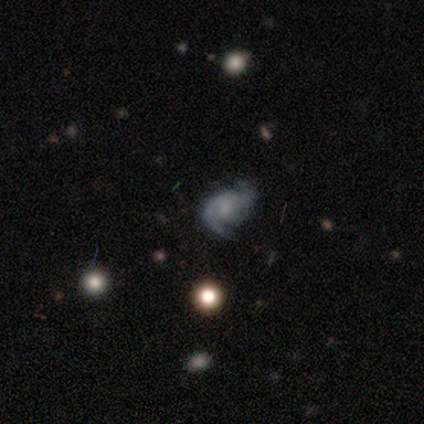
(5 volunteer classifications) Smooth or featured? 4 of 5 (80%) said featured or disk. Edge-on disk? 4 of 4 (100%) said no. Bar? 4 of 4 (100%) said no. Spiral arms? 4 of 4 (100%) said yes. Spiral winding? 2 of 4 (50%, tied with loose) said medium. Spiral arm count? 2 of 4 (50%) said 2. Bulge size? 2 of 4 (50%) said moderate. Merging? 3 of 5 (60%) said none.